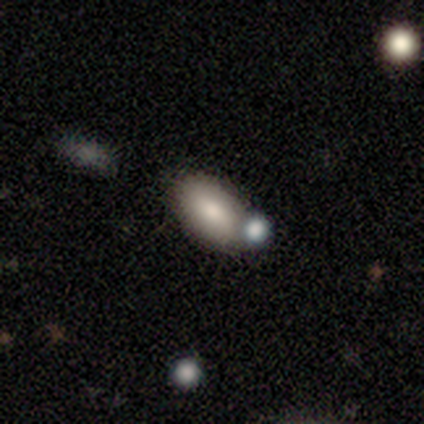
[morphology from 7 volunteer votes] smooth 71%, featured or disk 29%, star or artifact 0%. Down the decision tree: how rounded — in between (100%); merging — none (71%).